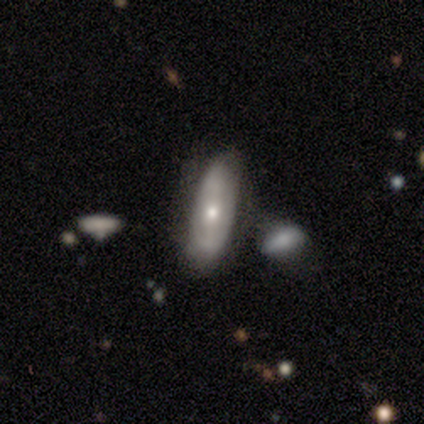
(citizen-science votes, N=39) Volunteers were most divided on "bulge size": small: 50%, moderate: 36%, large: 14%, dominant: 0%, none: 0%. More confident: edge-on disk — no (88%); smooth or featured — featured or disk (64%); merging — none (59%); spiral arms — no (59%); bar — no (55%).